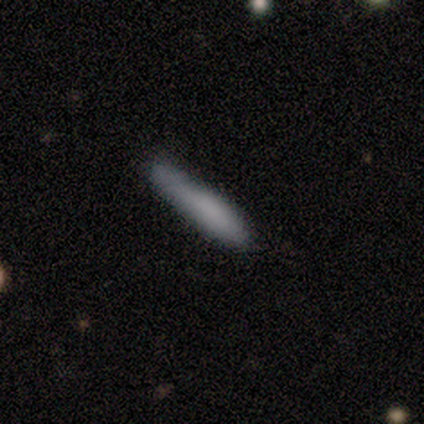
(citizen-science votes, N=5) Volunteers were most divided on "smooth or featured": smooth: 60%, featured or disk: 40%, star or artifact: 0%. More confident: how rounded — cigar-shaped (100%); merging — none (80%).